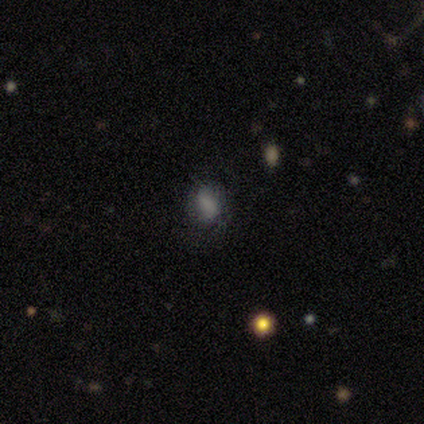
Volunteers were most divided on "how rounded": in between: 67%, round: 33%, cigar-shaped: 0%. More confident: merging — none (75%); smooth or featured — smooth (67%).